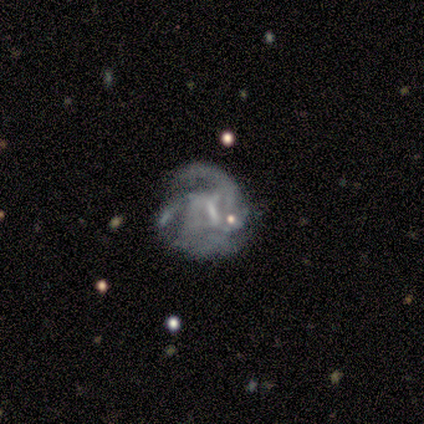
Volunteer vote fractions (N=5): smooth_or_featured: featured or disk (p=1.00)
disk_edge_on: no (p=1.00)
bar: strong (p=0.40) [tied with: weak p=0.40]
has_spiral_arms: yes (p=0.80) [alt: no p=0.20]
spiral_winding: medium (p=0.75) [alt: loose p=0.25]
spiral_arm_count: can't tell (p=0.75) [alt: 2 p=0.25]
bulge_size: none (p=0.60) [alt: large p=0.20]
merging: major disturbance (p=0.60) [alt: none p=0.40]